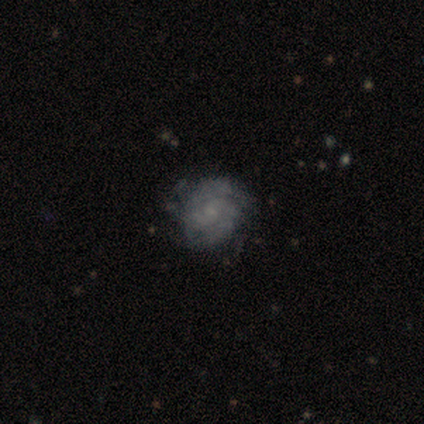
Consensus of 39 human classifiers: Volunteers were most divided on "bar": no: 52%, weak: 48%, strong: 0%. Remaining: edge-on disk — no (100%); spiral arms — yes (86%); bulge size — small (76%); smooth or featured — featured or disk (74%); merging — none (64%); spiral winding — tight (52%); spiral arm count — 2 (44%).